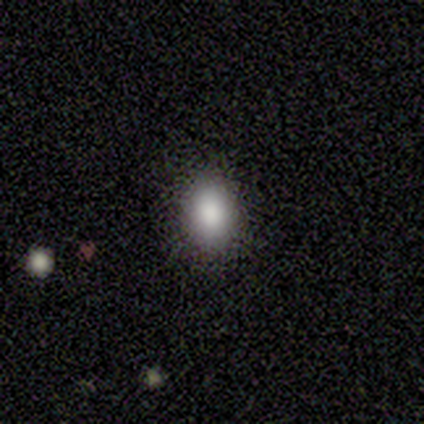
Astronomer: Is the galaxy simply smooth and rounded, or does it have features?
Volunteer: smooth — 100%.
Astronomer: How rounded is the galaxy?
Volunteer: in between — 75%.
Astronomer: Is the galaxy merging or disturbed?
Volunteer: none — 100%.